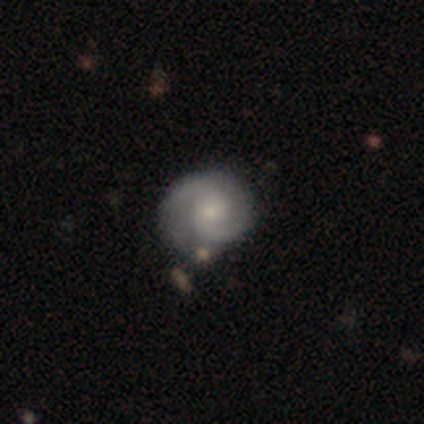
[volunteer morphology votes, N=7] featured or disk 86%, smooth 14%, star or artifact 0%. Down the decision tree: edge-on disk — no (100%); bar — weak (50%, tied with no); spiral arms — yes (100%); spiral arm count — 2 (100%); spiral winding — medium (50%); bulge size — small (67%); merging — none (71%).